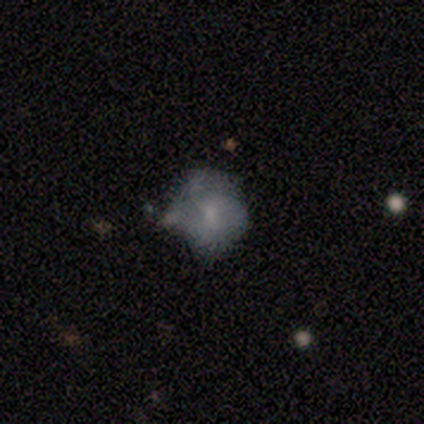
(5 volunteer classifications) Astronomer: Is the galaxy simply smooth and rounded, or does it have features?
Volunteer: featured or disk — 80%.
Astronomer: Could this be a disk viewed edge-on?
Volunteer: no — 100%.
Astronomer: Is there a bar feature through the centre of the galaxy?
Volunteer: weak — 75%.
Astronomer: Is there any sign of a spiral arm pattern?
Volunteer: yes — 100%.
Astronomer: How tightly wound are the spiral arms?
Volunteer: medium — 100%.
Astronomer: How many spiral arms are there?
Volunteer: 2 — 50%.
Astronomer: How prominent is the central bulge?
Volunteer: moderate — 75%.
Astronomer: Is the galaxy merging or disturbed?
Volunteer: none — 60%.